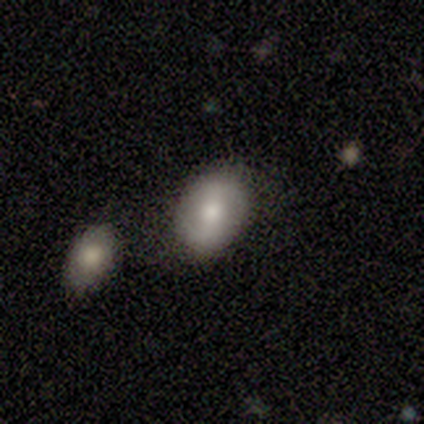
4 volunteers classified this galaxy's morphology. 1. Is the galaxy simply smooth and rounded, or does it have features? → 75% featured or disk, 25% smooth, 0% star or artifact.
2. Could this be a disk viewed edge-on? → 100% no, 0% yes.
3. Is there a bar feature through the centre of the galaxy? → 33% strong (tied), 33% weak (tied), 33% no (tied).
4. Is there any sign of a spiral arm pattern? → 67% no, 33% yes.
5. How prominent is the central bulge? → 67% moderate, 33% dominant, 0% large, 0% small, 0% none.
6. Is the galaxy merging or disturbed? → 50% minor disturbance, 25% none, 25% merger, 0% major disturbance.